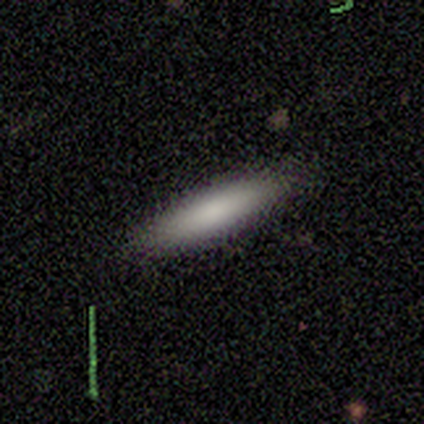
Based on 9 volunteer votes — Smooth or featured? 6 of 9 (67%) said smooth. How rounded? 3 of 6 (50%) said cigar-shaped. Merging? 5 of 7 (71%) said none.